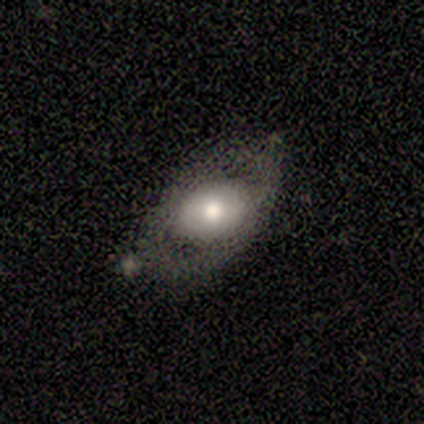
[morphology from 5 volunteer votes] Overall: smooth (60%; featured or disk 40%). How rounded: in between (67%; round 33%). Merging: none (80%).